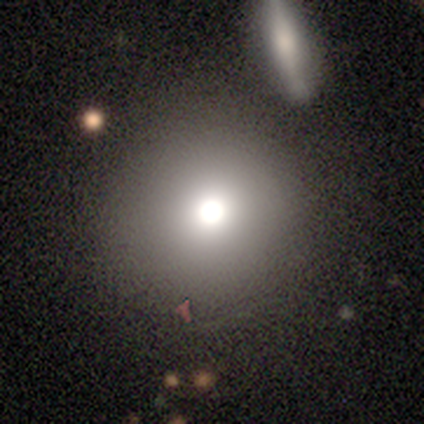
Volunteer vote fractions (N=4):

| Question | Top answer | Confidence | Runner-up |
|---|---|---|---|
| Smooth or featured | smooth | 75% | star or artifact (25%) |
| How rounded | round | 100% | — |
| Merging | none | 100% | — |